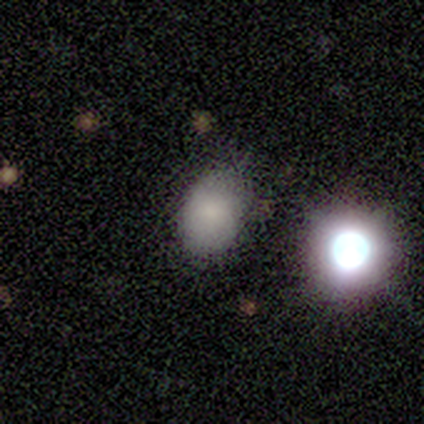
Morphology: type=smooth (88%); roundness=in between (71%); merging=none (71%).